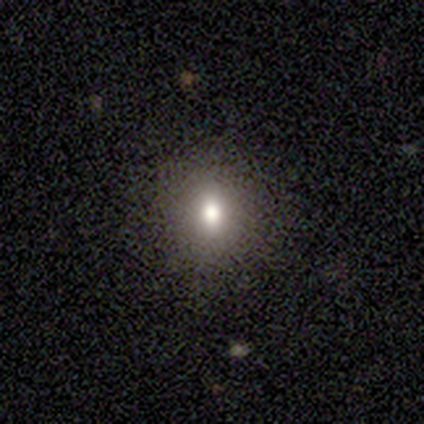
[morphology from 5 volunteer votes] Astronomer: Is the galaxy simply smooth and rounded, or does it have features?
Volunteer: smooth — 80%.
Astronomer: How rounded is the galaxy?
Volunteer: round — 75%.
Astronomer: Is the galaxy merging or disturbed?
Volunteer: none — 75%.